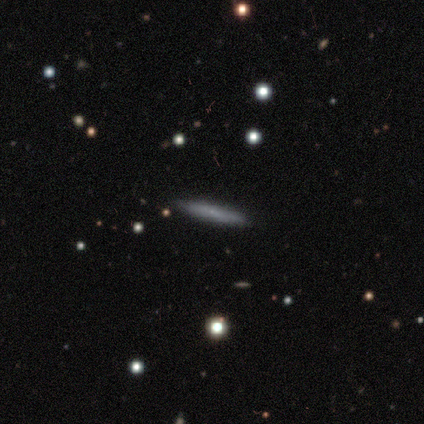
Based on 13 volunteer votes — A featured or disk galaxy (46%) viewed edge-on (100%) with no central bulge (83%). Merging: none (91%).